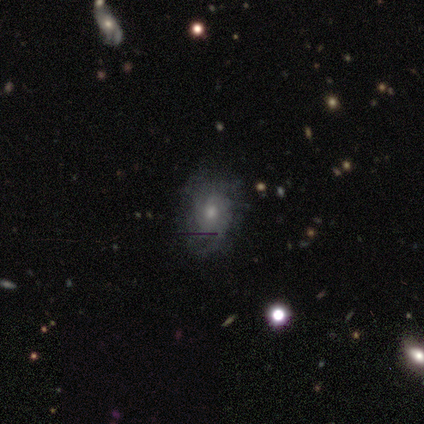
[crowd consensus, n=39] Smooth or featured? 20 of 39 (51%) said featured or disk. Edge-on disk? 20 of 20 (100%) said no. Bar? 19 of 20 (95%) said no. Spiral arms? 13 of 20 (65%) said yes. Spiral winding? 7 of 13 (54%) said tight. Spiral arm count? 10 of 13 (77%) said can't tell. Bulge size? 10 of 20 (50%, tied with small) said moderate. Merging? 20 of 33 (61%) said none.